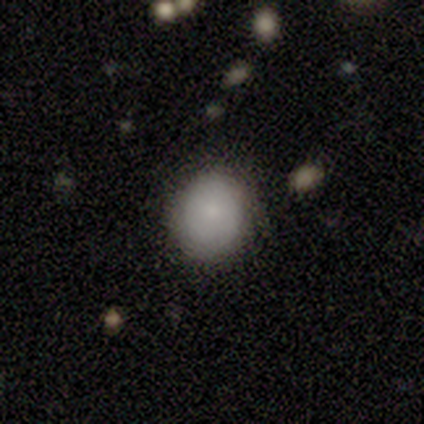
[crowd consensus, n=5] smooth-or-featured: smooth: 100% | featured or disk: 0% | star or artifact: 0%
  how-rounded: round: 100% | in between: 0% | cigar-shaped: 0%
  merging: none: 100% | minor disturbance: 0% | major disturbance: 0% | merger: 0%